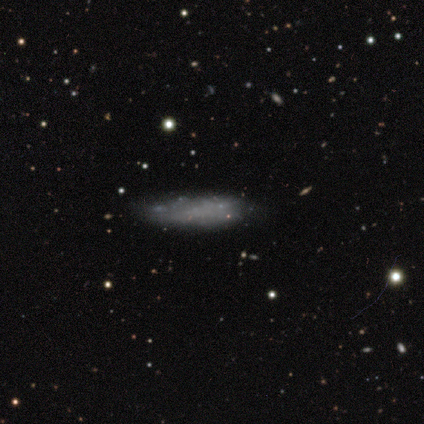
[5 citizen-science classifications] smooth 40% (tied), featured or disk 40% (tied), star or artifact 20%. Down the decision tree: how rounded — cigar-shaped (100%); merging — none (50%, tied with major disturbance).